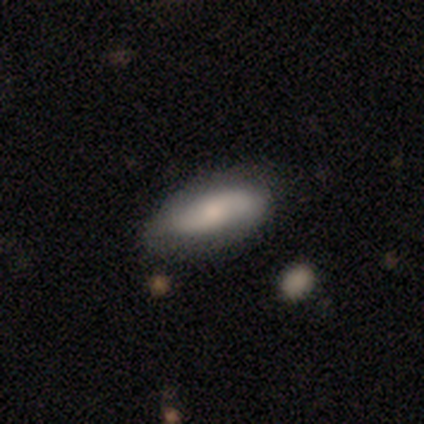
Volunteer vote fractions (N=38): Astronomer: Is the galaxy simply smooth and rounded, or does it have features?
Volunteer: smooth — 47%, tied with featured or disk at 47%.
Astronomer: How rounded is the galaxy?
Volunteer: in between — 94%.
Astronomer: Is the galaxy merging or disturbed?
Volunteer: none — 81%.